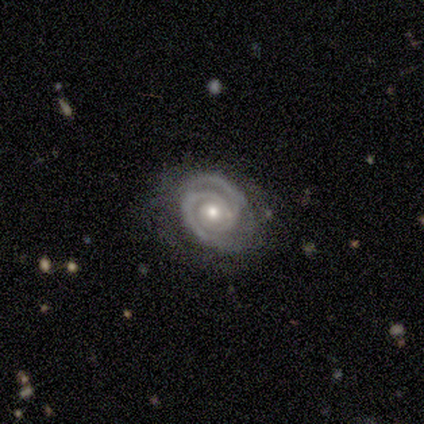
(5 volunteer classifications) A featured or disk galaxy (100%) with no bar (100%), 2 (80%) tight (100%) spiral arms (100%) and a moderate central bulge (80%). Merging: none (100%).